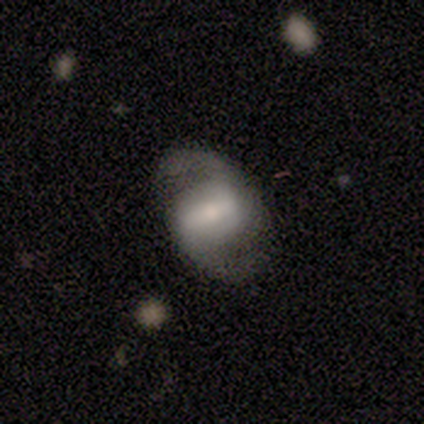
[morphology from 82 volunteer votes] A featured or disk galaxy (88%) with a strong bar (57%), 2 (97%) medium (61%) spiral arms (99%) and a moderate central bulge (46%).

Vote fractions:
- Smooth or featured? featured or disk: 88% / smooth: 10% / star or artifact: 2%
- Edge-on disk? no: 100% / yes: 0%
- Bar? strong: 57% / weak: 31% / no: 12%
- Spiral arms? yes: 99% / no: 1%
- Spiral winding? medium: 61% / loose: 32% / tight: 7%
- Spiral arm count? 2: 97% / 1: 1% / can't tell: 1% / 3: 0% / 4: 0% / more than 4: 0%
- Bulge size? moderate: 46% / small: 26% / large: 24% / none: 3% / dominant: 1%
- Merging? none: 66% / minor disturbance: 18% / major disturbance: 12% / merger: 4%